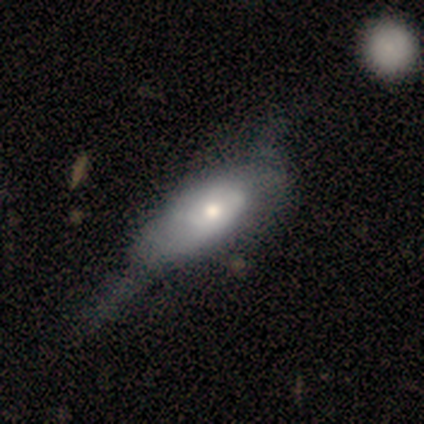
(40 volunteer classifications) smooth 50%, featured or disk 40%, star or artifact 10%. Down the decision tree: how rounded — in between (90%); merging — major disturbance (36%).